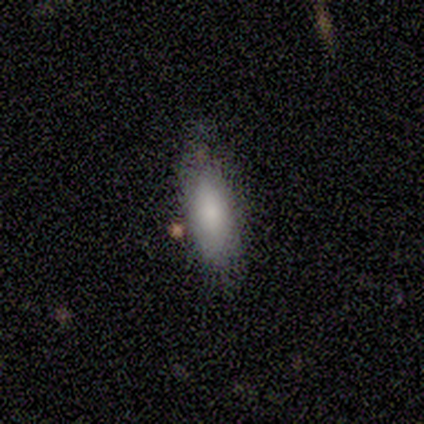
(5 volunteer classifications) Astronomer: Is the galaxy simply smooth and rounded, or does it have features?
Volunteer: smooth — 100%.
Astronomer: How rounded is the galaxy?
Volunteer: in between — 80%.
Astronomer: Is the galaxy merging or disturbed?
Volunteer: none — 80%.